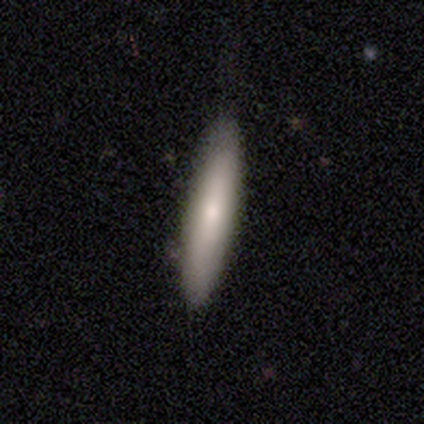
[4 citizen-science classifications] Smooth or featured? smooth (75%)
How rounded? cigar-shaped (100%)
Merging? none (50%, tied with minor disturbance)